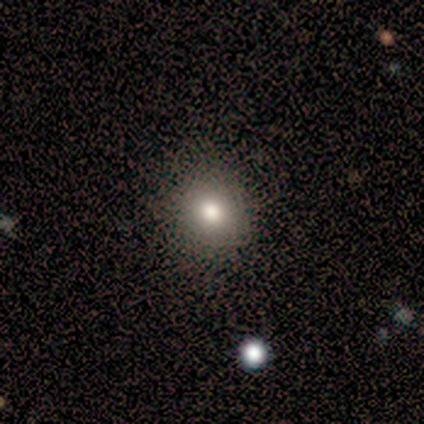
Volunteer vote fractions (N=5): smooth-or-featured: smooth: 100% | featured or disk: 0% | star or artifact: 0%
  how-rounded: round: 100% | in between: 0% | cigar-shaped: 0%
  merging: none: 100% | minor disturbance: 0% | major disturbance: 0% | merger: 0%